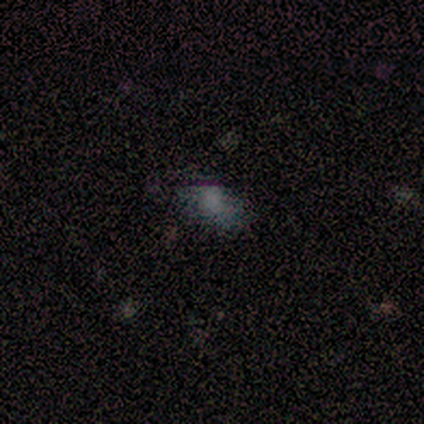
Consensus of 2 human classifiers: smooth 50% (tied), featured or disk 50% (tied), star or artifact 0%. Down the decision tree: how rounded — in between (100%); merging — none (100%).